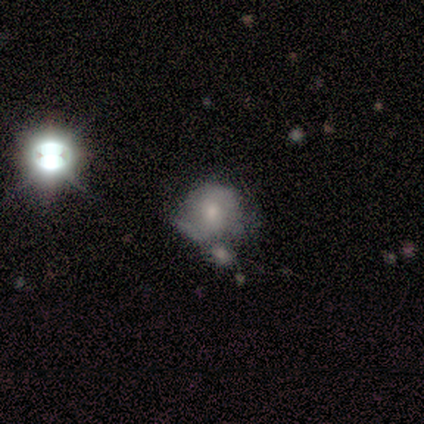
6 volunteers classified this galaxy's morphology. A featured or disk galaxy (50%) with no bar (100%), no spiral arms (67%) and a small central bulge (100%).

Vote fractions:
- Smooth or featured? featured or disk: 50% / smooth: 33% / star or artifact: 17%
- Edge-on disk? no: 100% / yes: 0%
- Bar? no: 100% / strong: 0% / weak: 0%
- Spiral arms? no: 67% / yes: 33%
- Bulge size? small: 100% / dominant: 0% / large: 0% / moderate: 0% / none: 0%
- Merging? none: 60% / minor disturbance: 20% / merger: 20% / major disturbance: 0%